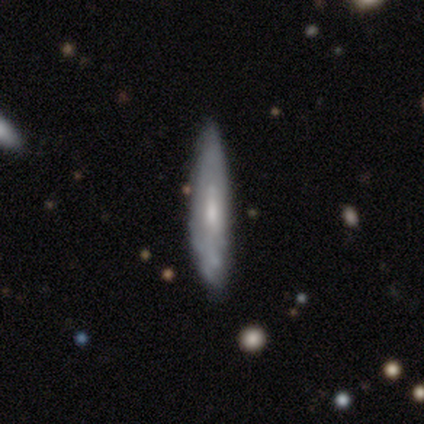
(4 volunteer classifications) A smooth galaxy with no disk features (50%, tied with featured or disk) that is cigar-shaped (100%). Merging: none (75%).